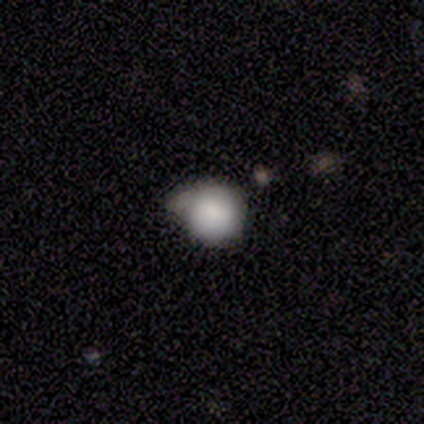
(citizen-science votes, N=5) smooth 100%, featured or disk 0%, star or artifact 0%. Down the decision tree: how rounded — round (100%); merging — minor disturbance (80%).